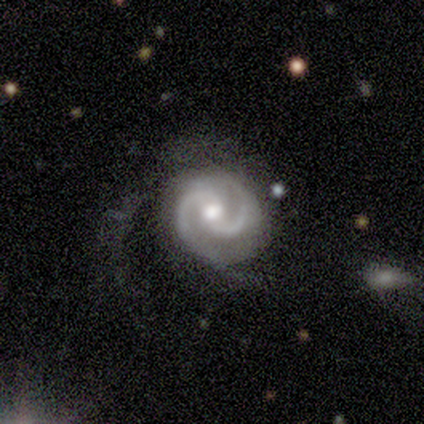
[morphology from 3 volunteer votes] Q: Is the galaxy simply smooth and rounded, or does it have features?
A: featured or disk — 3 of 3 (100%).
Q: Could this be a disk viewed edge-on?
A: no — 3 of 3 (100%).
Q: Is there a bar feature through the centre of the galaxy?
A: strong — 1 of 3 (33%, tied with weak and no).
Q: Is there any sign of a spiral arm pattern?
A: yes — 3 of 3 (100%).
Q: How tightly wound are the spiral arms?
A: medium — 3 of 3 (100%).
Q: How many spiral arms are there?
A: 2 — 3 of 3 (100%).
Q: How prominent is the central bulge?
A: moderate — 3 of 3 (100%).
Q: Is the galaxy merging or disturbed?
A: minor disturbance — 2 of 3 (67%).